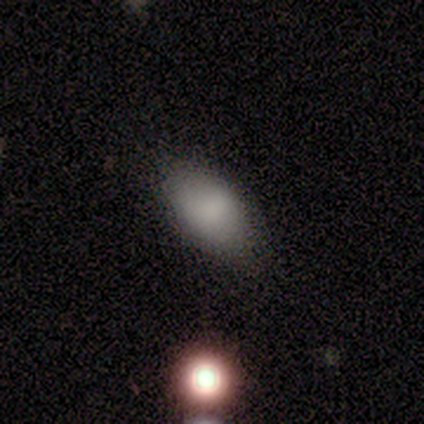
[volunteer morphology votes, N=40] smooth 78%, featured or disk 18%, star or artifact 5%. Down the decision tree: how rounded — in between (100%); merging — none (82%).